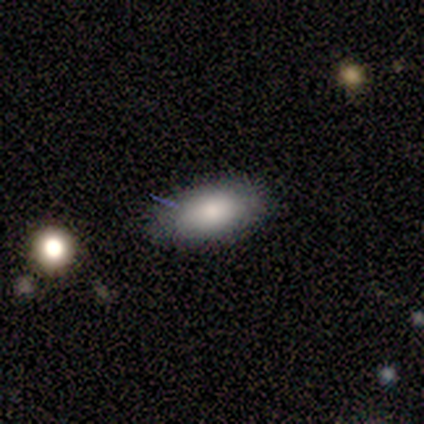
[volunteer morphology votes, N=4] Smooth or featured? 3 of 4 (75%) said smooth. How rounded? 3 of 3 (100%) said in between. Merging? 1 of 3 (33%, tied with minor disturbance and major disturbance) said none.